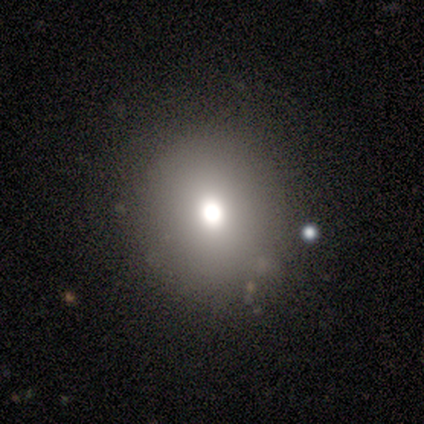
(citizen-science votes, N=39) This appears to be a smooth galaxy with no disk features (64%) that is round (88%). Merging: none (86%).